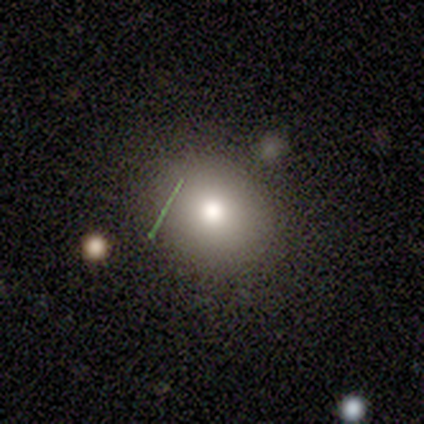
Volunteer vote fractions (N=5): Morphology: type=smooth (80%); roundness=round (75%); merging=none (75%).